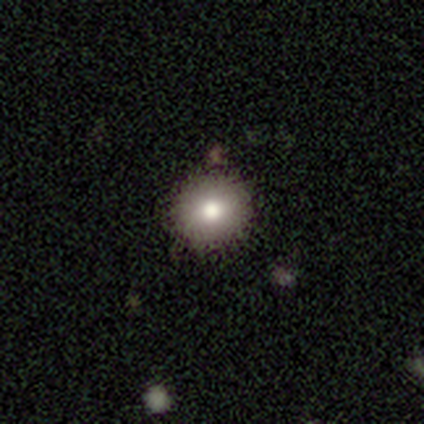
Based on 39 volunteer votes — Smooth or featured? 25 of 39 (64%) said smooth. How rounded? 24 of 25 (96%) said round. Merging? 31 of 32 (97%) said none.